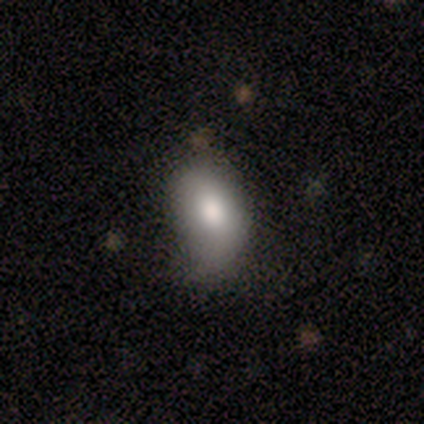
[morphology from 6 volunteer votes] Volunteers were most divided on "bulge size" (3-way tie): large: 33%, moderate: 33%, small: 33%, dominant: 0%, none: 0%; "merging" (2-way tie): minor disturbance: 50%, major disturbance: 50%, none: 0%, merger: 0%. More confident: edge-on disk — no (100%); bar — no (100%); spiral arms — no (100%); smooth or featured — featured or disk (50%).